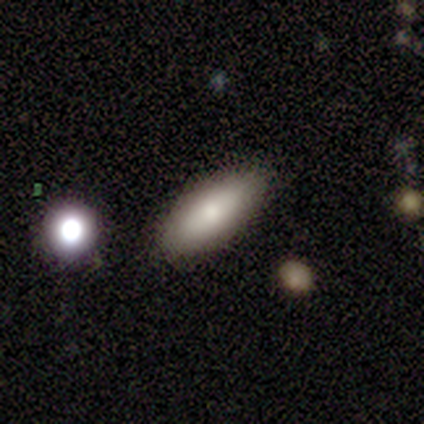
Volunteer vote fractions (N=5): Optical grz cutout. It shows a featured or disk galaxy (60%) with a weak bar (50%, tied with no), tight (100%) spiral arms (50%, tied with no) and a small central bulge (100%). Merging: none (80%).